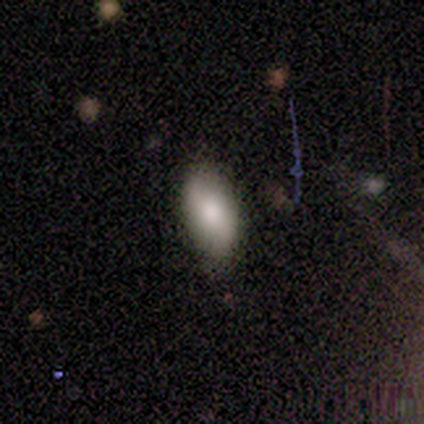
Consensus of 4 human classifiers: Overall: smooth (100%). How rounded: in between (75%). Merging: none (100%).